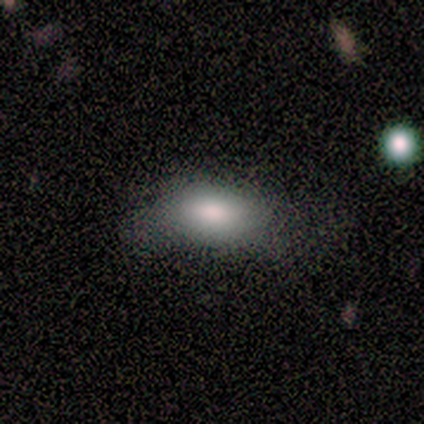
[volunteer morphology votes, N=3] This is clearly a smooth galaxy (100%). How rounded: clearly in between (100%). Merging: likely none (67%).